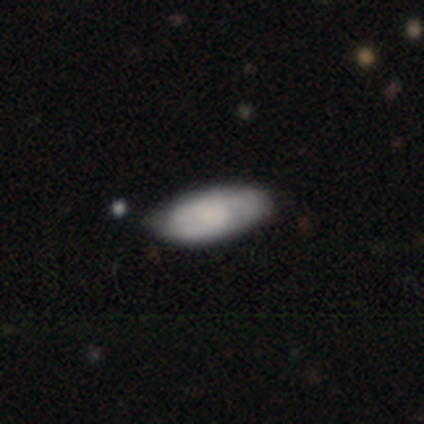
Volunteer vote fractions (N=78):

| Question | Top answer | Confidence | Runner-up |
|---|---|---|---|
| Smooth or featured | smooth | 63% | featured or disk (36%) |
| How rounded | in between | 90% | cigar-shaped (10%) |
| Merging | none | 31% | minor disturbance (17%) |